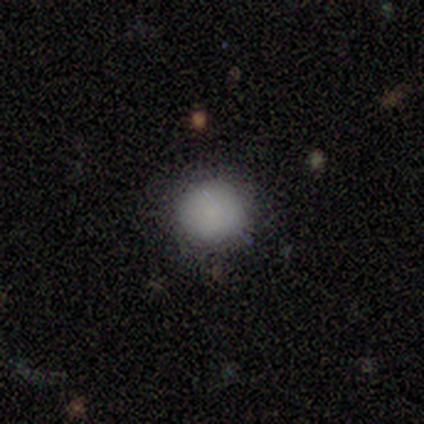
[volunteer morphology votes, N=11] This appears to be a smooth galaxy with no disk features (82%) that is round (100%). Merging: none (90%).